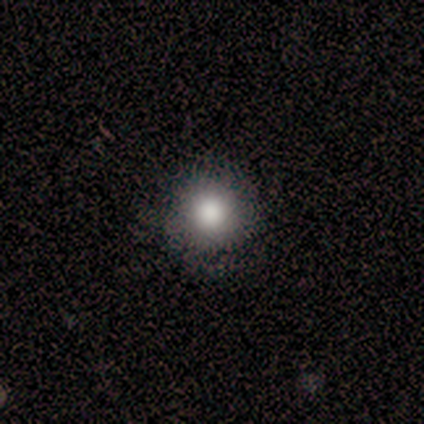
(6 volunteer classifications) This is clearly a smooth galaxy (100%). How rounded: clearly round (100%). Merging: clearly none (100%).